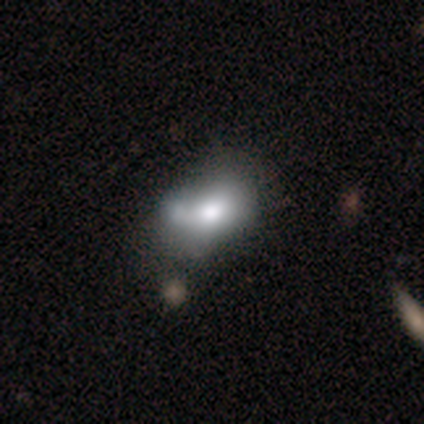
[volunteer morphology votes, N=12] A smooth galaxy with no disk features (50%) that is in between round and cigar-shaped (67%). Merging: merger (44%).